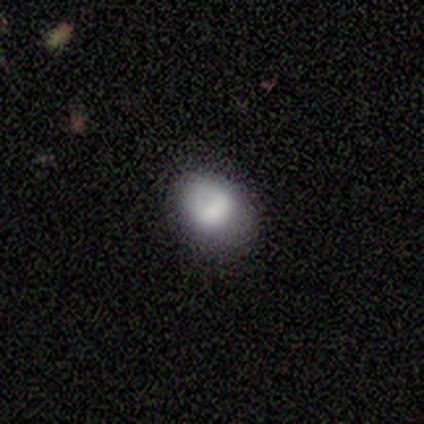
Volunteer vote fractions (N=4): smooth_or_featured: smooth (p=0.75) [alt: featured or disk p=0.25]
how_rounded: in between (p=1.00)
merging: minor disturbance (p=0.75) [alt: none p=0.25]